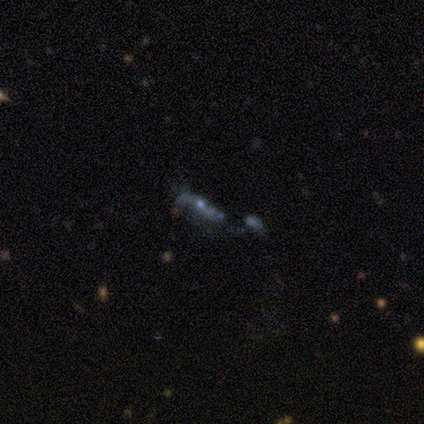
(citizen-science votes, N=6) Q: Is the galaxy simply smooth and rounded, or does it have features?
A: featured or disk — 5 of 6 (83%).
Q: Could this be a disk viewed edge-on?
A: no — 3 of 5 (60%).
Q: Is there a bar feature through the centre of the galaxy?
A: strong — 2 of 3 (67%).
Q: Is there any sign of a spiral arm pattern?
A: yes — 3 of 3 (100%).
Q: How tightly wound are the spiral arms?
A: loose — 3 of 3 (100%).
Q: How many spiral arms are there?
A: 2 — 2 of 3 (67%).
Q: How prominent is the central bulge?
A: none — 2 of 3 (67%).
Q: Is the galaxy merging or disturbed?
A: none — 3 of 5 (60%).